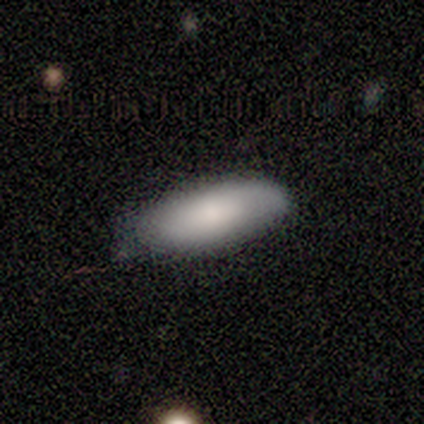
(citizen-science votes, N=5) Smooth or featured? 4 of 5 (80%) said smooth. How rounded? 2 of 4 (50%, tied with cigar-shaped) said in between. Merging? 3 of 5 (60%) said none.